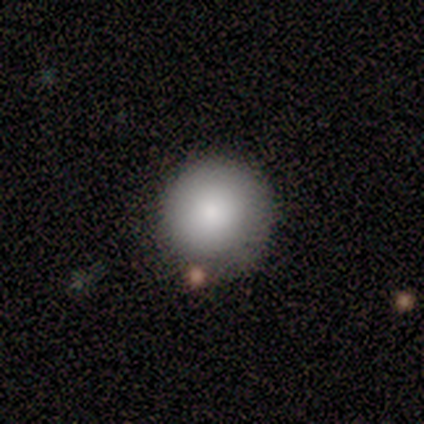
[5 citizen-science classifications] Overall: smooth (100%). How rounded: round (100%). Merging: none (80%).